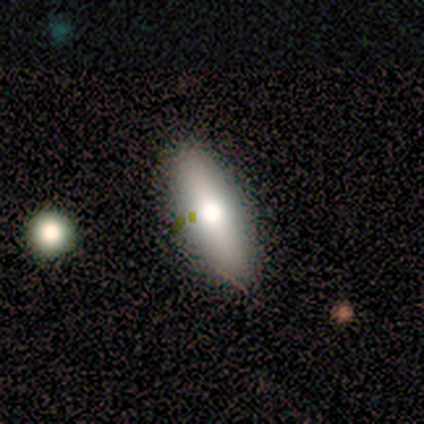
Smooth or featured? 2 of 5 (40%, tied with featured or disk) said smooth. How rounded? 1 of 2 (50%, tied with cigar-shaped) said in between. Merging? 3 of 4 (75%) said none.